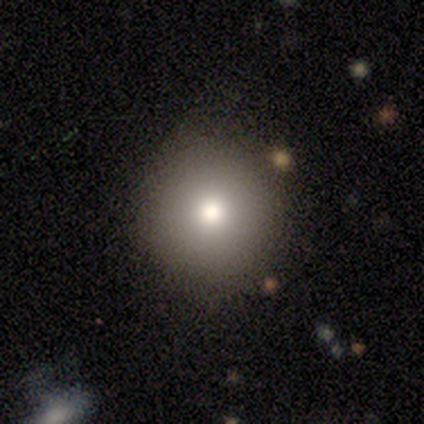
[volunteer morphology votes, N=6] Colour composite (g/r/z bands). It shows a smooth galaxy with no disk features (100%) that is round (100%). Merging: none (100%).